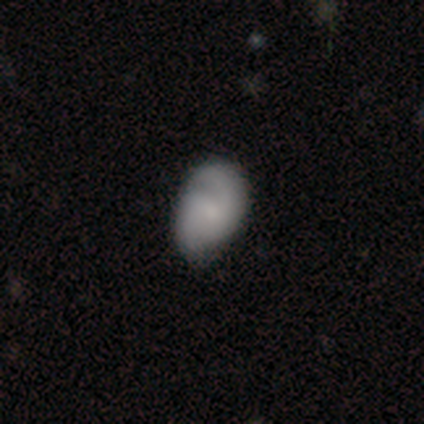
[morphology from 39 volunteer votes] Smooth or featured? smooth (59%)
How rounded? in between (91%)
Merging? none (61%)